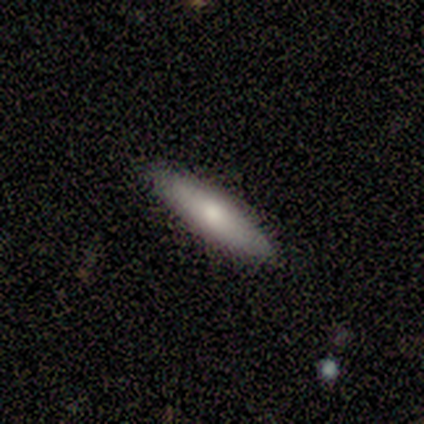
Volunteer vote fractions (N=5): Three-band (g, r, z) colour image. It shows a smooth galaxy with no disk features (60%) that is cigar-shaped (100%). Merging: none (80%).